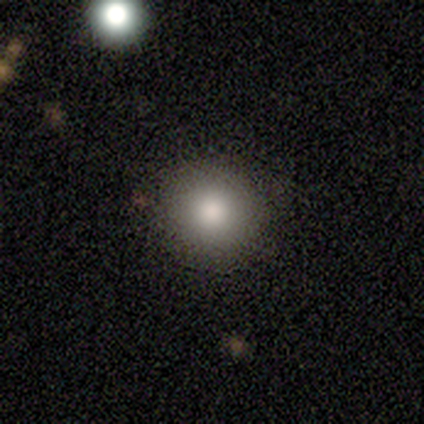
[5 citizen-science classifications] Smooth or featured?
  - smooth: 60% *
  - star or artifact: 40%
  - featured or disk: 0%
How rounded?
  - round: 100% *
  - in between: 0%
  - cigar-shaped: 0%
Merging?
  - none: 100% *
  - minor disturbance: 0%
  - major disturbance: 0%
  - merger: 0%